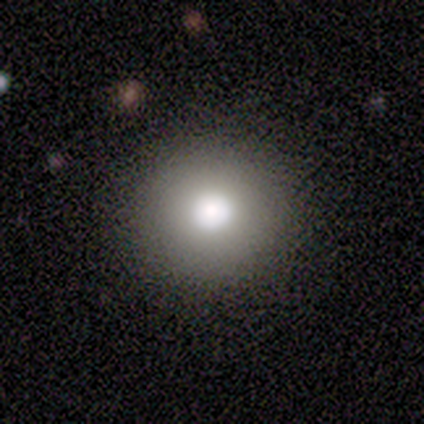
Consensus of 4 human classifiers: Smooth or featured? 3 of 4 (75%) said smooth. How rounded? 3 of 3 (100%) said round. Merging? 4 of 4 (100%) said none.